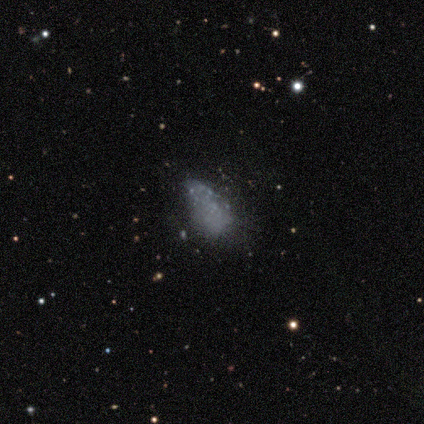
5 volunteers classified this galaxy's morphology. Smooth or featured?
  - smooth: 60% *
  - featured or disk: 40%
  - star or artifact: 0%
How rounded?
  - round: 33% * (tied)
  - in between: 33% * (tied)
  - cigar-shaped: 33% * (tied)
Merging?
  - none: 60% *
  - minor disturbance: 20%
  - major disturbance: 20%
  - merger: 0%